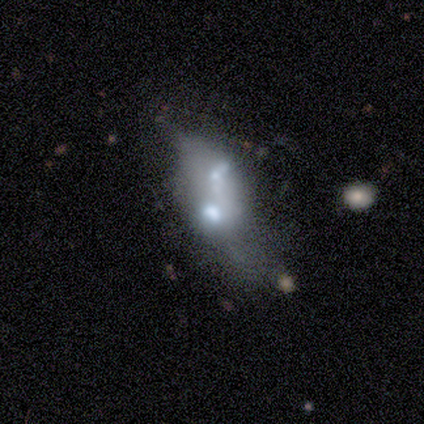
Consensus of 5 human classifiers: Morphology: type=featured or disk (60%); edge-on=no (100%); bar=no (67%); spiral arms=no (67%); bulge=large (33%, tied with moderate and none); merging=none (40%, tied with merger).